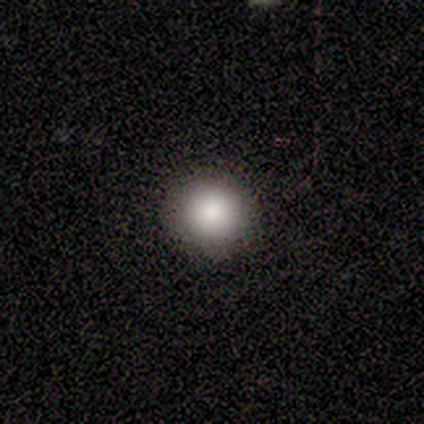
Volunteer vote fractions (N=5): Smooth or featured: smooth — 100%
How rounded: round — 80% (in between — 20%)
Merging: none — 100%